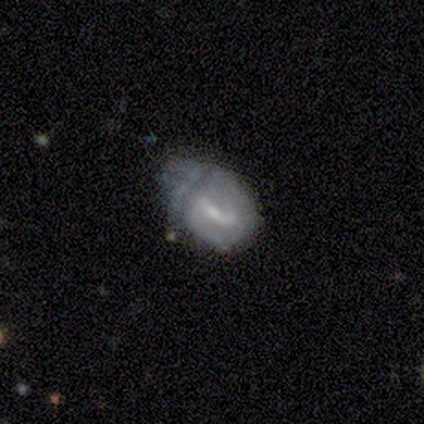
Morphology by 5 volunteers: Overall: featured or disk (60%; smooth 20%). Edge-on disk: no (100%). Bar: weak (100%). Spiral arms: no (67%; yes 33%). Bulge size: small (67%; moderate 33%). Merging: minor disturbance (50%; major disturbance 25%).